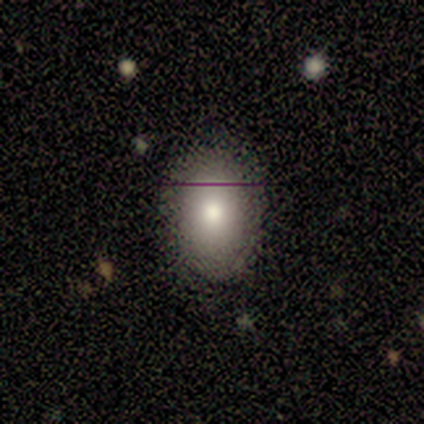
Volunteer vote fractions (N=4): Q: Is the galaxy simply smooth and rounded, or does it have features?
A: smooth — 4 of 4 (100%).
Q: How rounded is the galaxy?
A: in between — 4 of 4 (100%).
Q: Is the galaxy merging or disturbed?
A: none — 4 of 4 (100%).